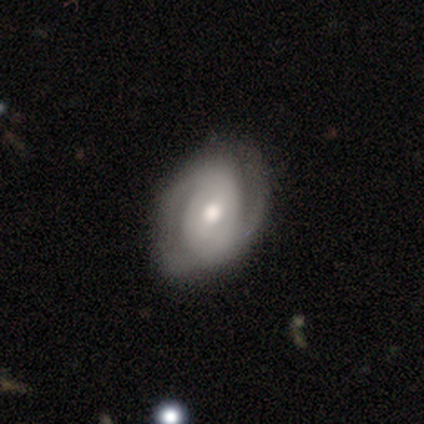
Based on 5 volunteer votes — Volunteers were most divided on "spiral arm count" (2-way tie): 2: 50%, can't tell: 50%, 1: 0%, 3: 0%, 4: 0%, more than 4: 0%. More confident: smooth or featured — featured or disk (100%); edge-on disk — no (100%); bulge size — moderate (100%); spiral arms — yes (80%); spiral winding — medium (75%); bar — weak (60%); merging — none (60%).